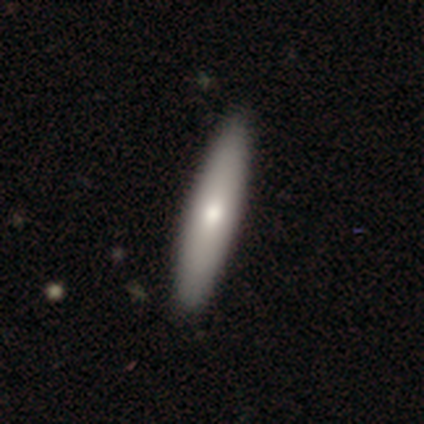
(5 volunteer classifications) Overall: featured or disk (60%; smooth 40%). Edge-on disk: yes (100%). Edge-on bulge: rounded (100%). Merging: none (100%).